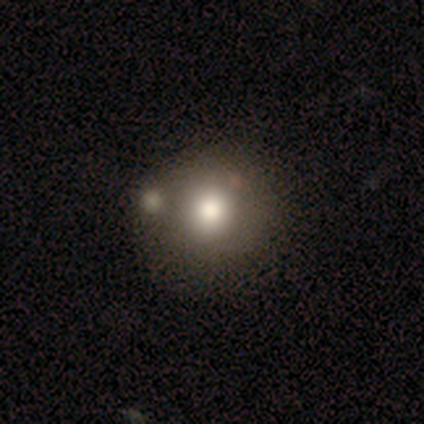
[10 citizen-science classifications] Smooth or featured?
  - smooth: 70% *
  - star or artifact: 30%
  - featured or disk: 0%
How rounded?
  - round: 86% *
  - in between: 14%
  - cigar-shaped: 0%
Merging?
  - none: 43% *
  - merger: 29%
  - minor disturbance: 14%
  - major disturbance: 14%